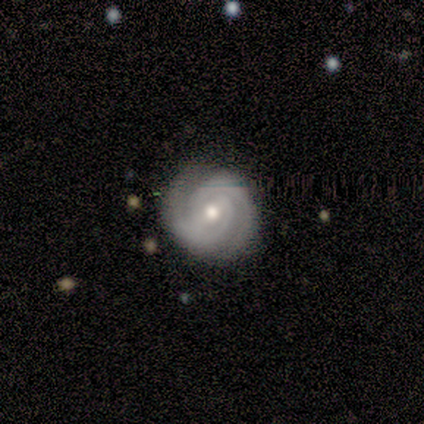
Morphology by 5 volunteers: Smooth or featured? featured or disk (100%)
Edge-on disk? no (100%)
Bar? strong (40%, tied with weak)
Spiral arms? yes (100%)
Spiral winding? tight (60%)
Spiral arm count? 2 (100%)
Bulge size? moderate (80%)
Merging? none (80%)